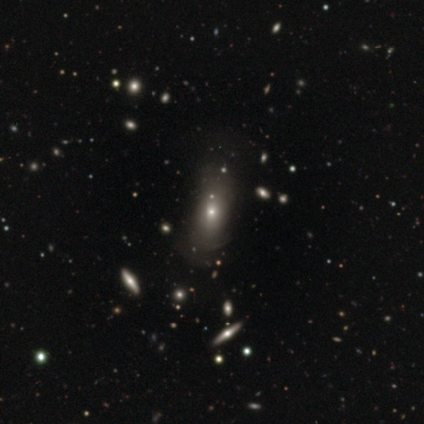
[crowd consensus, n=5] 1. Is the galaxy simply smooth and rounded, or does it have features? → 40% smooth (tied), 40% featured or disk (tied), 20% star or artifact.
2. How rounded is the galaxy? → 100% round, 0% in between, 0% cigar-shaped.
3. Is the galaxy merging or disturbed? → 75% none, 25% merger, 0% minor disturbance, 0% major disturbance.